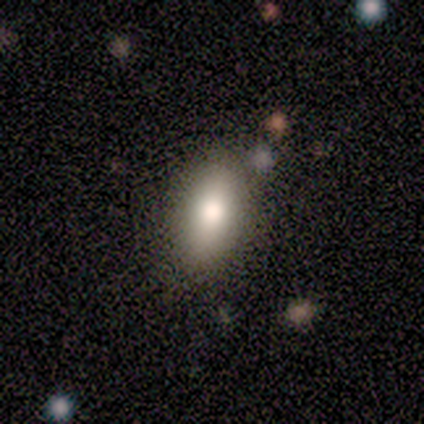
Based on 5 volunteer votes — Morphology: type=smooth (80%); roundness=in between (100%); merging=none (100%).